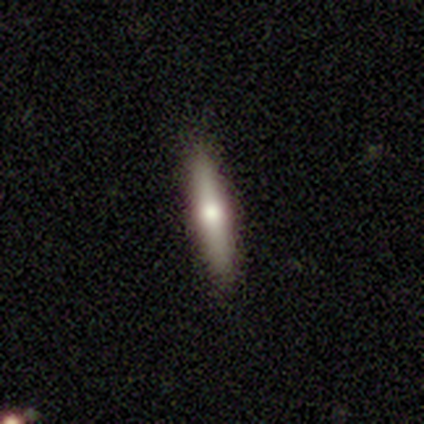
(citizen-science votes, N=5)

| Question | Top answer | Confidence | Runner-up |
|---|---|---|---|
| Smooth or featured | smooth | 60% | featured or disk (40%) |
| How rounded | cigar-shaped | 100% | — |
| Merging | none | 100% | — |